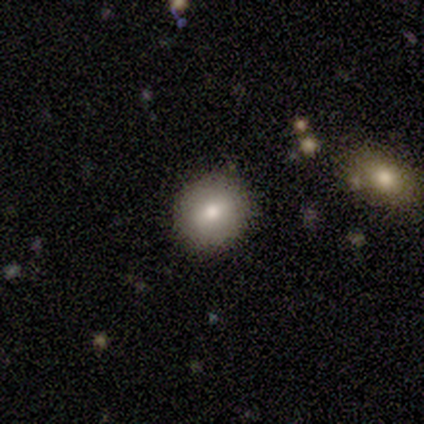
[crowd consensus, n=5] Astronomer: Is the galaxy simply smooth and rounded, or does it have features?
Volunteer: smooth — 40%, tied with featured or disk at 40%.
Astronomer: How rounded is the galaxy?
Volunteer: round — 100%.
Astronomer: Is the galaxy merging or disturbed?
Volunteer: none — 100%.